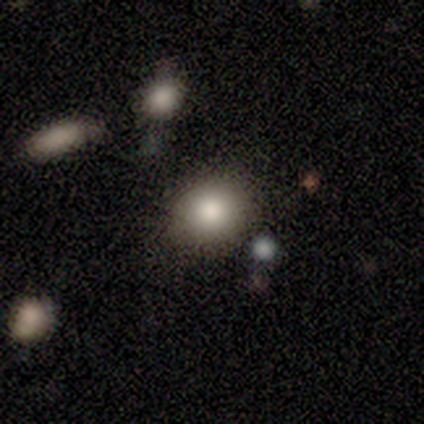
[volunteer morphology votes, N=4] A smooth galaxy with no disk features (50%) that is round (50%, tied with in between). Merging: none (100%).